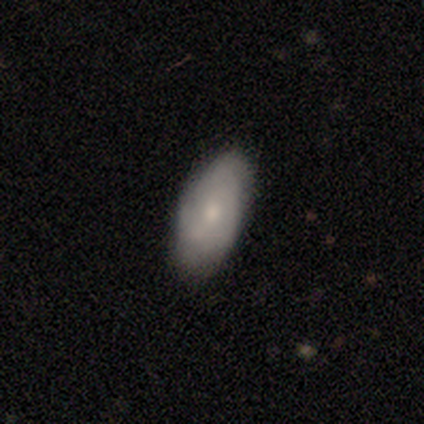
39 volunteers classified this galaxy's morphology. Smooth or featured? smooth (67%)
How rounded? in between (88%)
Merging? none (70%)